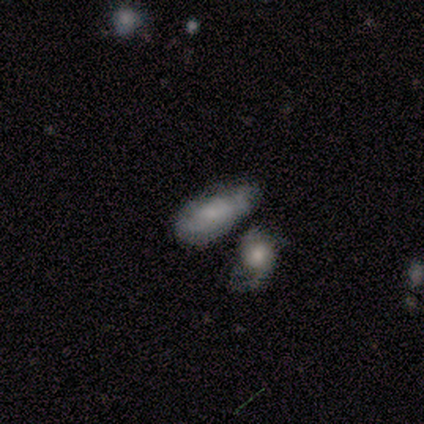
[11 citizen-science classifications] smooth 55%, featured or disk 45%, star or artifact 0%. Down the decision tree: how rounded — in between (83%); merging — none (45%).